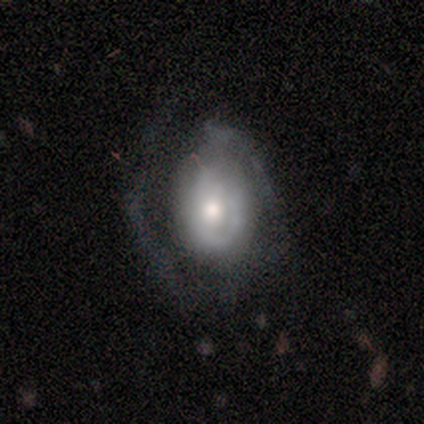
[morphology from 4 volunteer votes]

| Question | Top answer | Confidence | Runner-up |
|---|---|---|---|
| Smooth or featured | smooth | 50% | featured or disk (25%) |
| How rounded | round | 50% | tied: in between (50%) |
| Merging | major disturbance | 67% | minor disturbance (33%) |